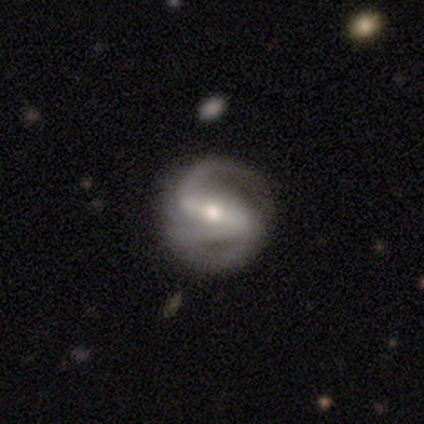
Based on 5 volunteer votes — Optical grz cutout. It shows a featured or disk galaxy (100%) with a weak bar (50%), 2 (50%) medium (50%) spiral arms (100%) and a moderate central bulge (50%, tied with small). Merging: none (80%).